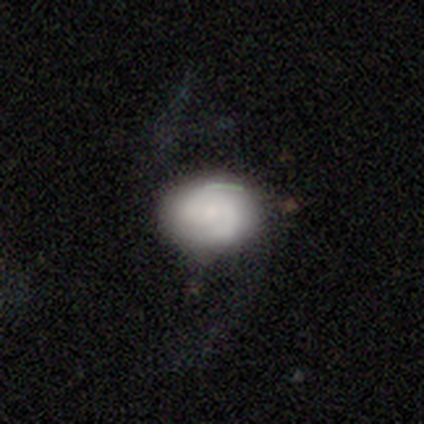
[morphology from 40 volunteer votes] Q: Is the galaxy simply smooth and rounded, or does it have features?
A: featured or disk — 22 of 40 (55%).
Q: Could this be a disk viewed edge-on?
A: no — 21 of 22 (95%).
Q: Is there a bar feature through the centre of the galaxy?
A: no — 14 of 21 (67%).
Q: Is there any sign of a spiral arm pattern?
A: yes — 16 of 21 (76%).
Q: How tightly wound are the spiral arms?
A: medium — 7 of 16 (44%).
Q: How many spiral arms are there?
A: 2 — 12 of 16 (75%).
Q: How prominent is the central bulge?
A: small — 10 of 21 (48%).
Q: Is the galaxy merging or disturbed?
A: none — 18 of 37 (49%).